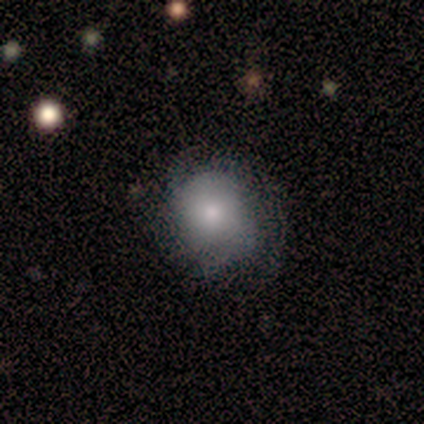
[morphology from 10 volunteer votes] Smooth or featured: smooth — 50% (featured or disk — 40%)
How rounded: round — 80% (in between — 20%)
Merging: none — 89% (major disturbance — 11%)